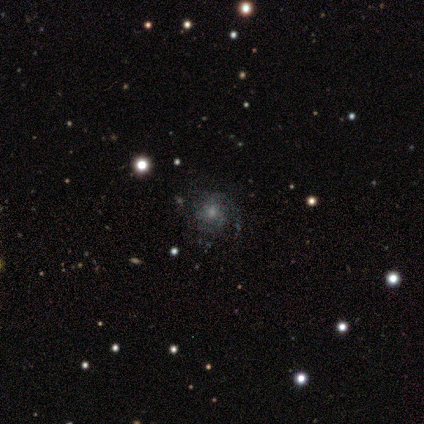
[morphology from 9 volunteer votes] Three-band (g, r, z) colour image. It shows a featured or disk galaxy (67%) with no bar (67%), 1 (40%) medium (80%) spiral arms (83%) and a moderate central bulge (67%). Merging: none (57%).